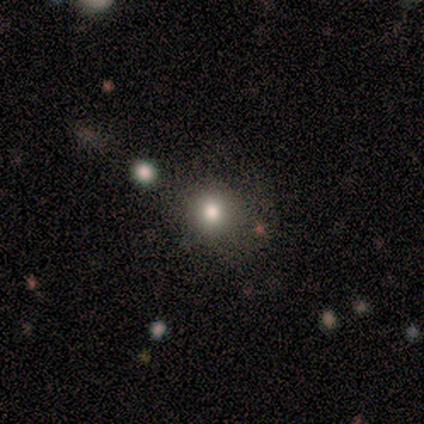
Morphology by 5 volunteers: This is clearly a smooth galaxy (80%). How rounded: clearly round (100%). Merging: clearly none (100%).